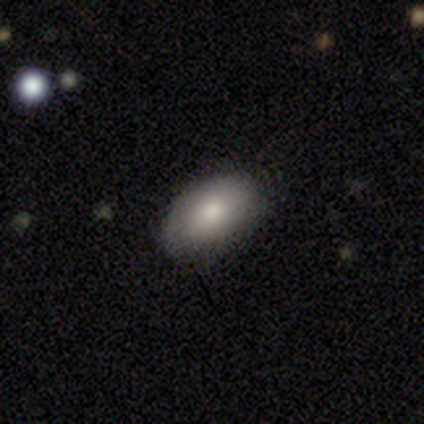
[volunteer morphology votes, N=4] A smooth galaxy with no disk features (50%, tied with featured or disk) that is in between round and cigar-shaped (100%). Merging: none (50%, tied with minor disturbance).